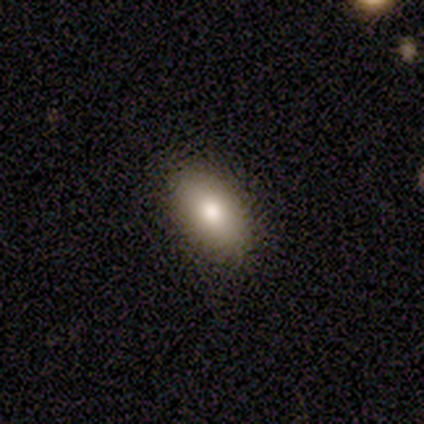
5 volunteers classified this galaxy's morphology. This appears to be a smooth galaxy with no disk features (100%) that is in between round and cigar-shaped (100%). Merging: none (100%).